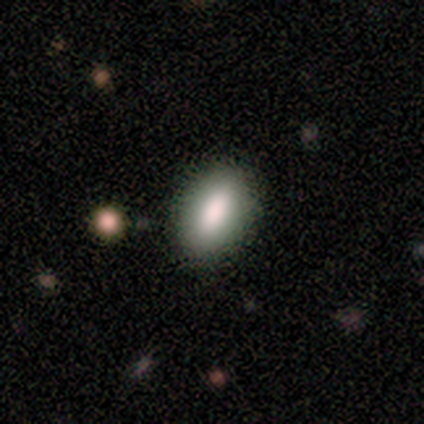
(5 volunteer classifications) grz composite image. It shows a smooth galaxy with no disk features (80%) that is in between round and cigar-shaped (100%). Merging: none (100%).